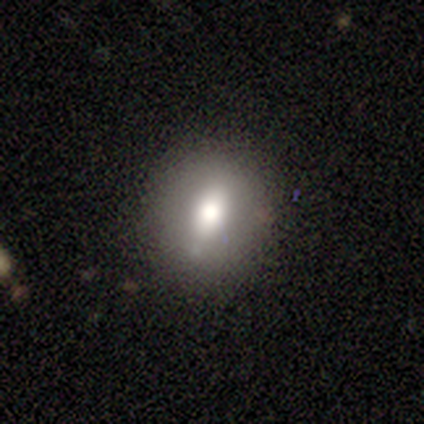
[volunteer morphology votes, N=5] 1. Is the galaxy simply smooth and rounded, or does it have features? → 80% smooth, 20% featured or disk, 0% star or artifact.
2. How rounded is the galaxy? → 75% in between, 25% round, 0% cigar-shaped.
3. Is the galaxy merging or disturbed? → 60% none, 40% minor disturbance, 0% major disturbance, 0% merger.